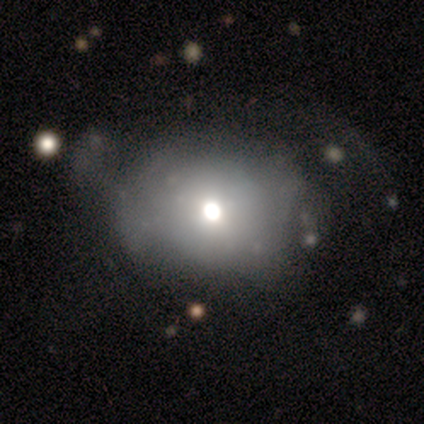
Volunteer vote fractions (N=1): Smooth or featured? smooth (100%)
How rounded? round (100%)
Merging? minor disturbance (100%)